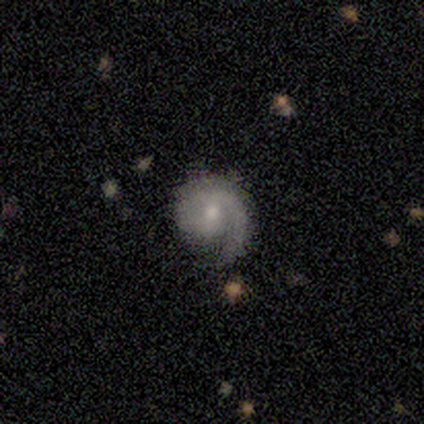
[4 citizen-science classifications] Smooth or featured? 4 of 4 (100%) said featured or disk. Edge-on disk? 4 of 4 (100%) said no. Bar? 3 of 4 (75%) said no. Spiral arms? 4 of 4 (100%) said yes. Spiral winding? 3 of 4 (75%) said tight. Spiral arm count? 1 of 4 (25%, tied with 2, 3 and can't tell) said 1. Bulge size? 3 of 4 (75%) said small. Merging? 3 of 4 (75%) said none.